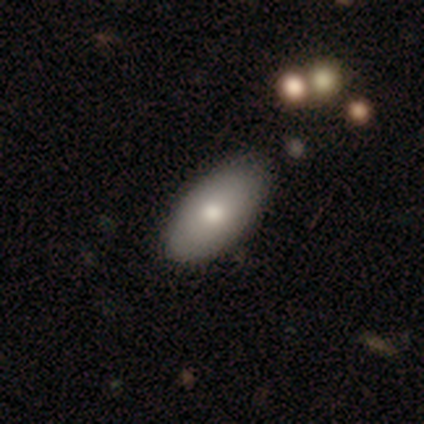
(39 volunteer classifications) Smooth or featured? 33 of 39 (85%) said smooth. How rounded? 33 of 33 (100%) said in between. Merging? 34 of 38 (89%) said none.